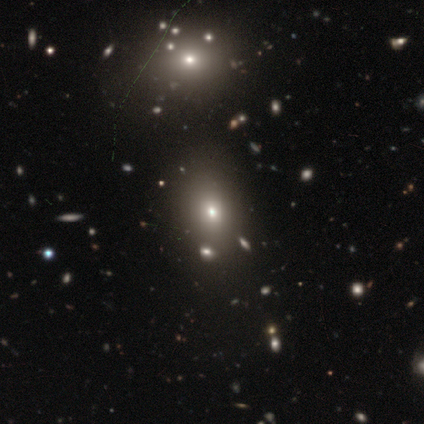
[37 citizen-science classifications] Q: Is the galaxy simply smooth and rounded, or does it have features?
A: smooth — 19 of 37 (51%).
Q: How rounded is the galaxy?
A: in between — 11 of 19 (58%).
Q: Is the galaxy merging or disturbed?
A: none — 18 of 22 (82%).